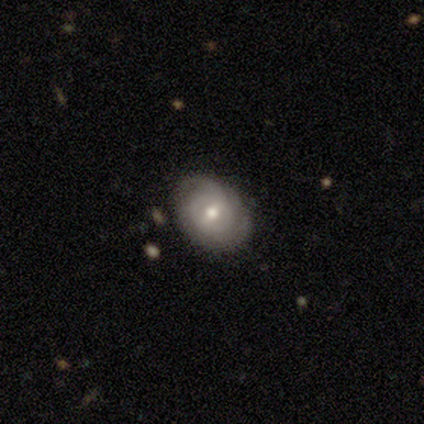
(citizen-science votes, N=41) smooth_or_featured: featured or disk (p=0.78) [alt: smooth p=0.17]
disk_edge_on: no (p=0.97) [alt: yes p=0.03]
bar: weak (p=0.55) [alt: no p=0.35]
has_spiral_arms: yes (p=0.94) [alt: no p=0.06]
spiral_winding: tight (p=0.59) [alt: medium p=0.31]
spiral_arm_count: can't tell (p=0.41) [alt: 2 p=0.38]
bulge_size: moderate (p=0.84) [alt: small p=0.16]
merging: none (p=0.87) [alt: minor disturbance p=0.10]